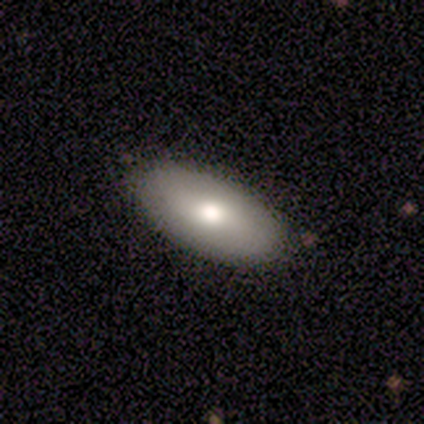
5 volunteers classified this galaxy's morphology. Smooth or featured? 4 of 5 (80%) said smooth. How rounded? 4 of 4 (100%) said in between. Merging? 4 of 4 (100%) said none.